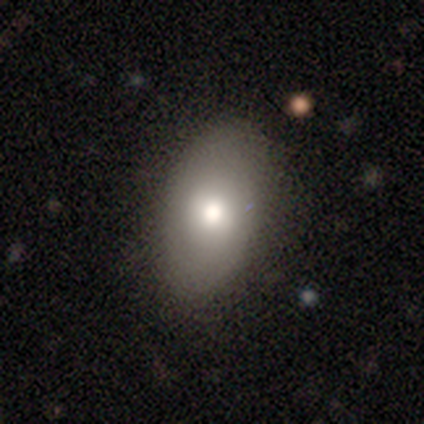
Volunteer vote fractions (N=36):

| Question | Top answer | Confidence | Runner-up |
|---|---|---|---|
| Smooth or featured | smooth | 72% | featured or disk (25%) |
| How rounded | in between | 88% | round (12%) |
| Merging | none | 91% | minor disturbance (6%) |